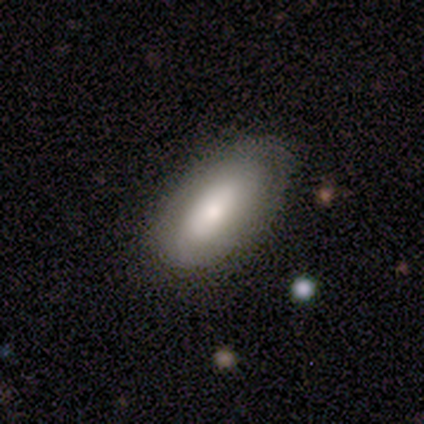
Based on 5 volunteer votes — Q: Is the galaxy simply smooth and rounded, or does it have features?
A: smooth — 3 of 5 (60%).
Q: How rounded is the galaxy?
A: in between — 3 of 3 (100%).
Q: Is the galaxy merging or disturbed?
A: none — 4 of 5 (80%).